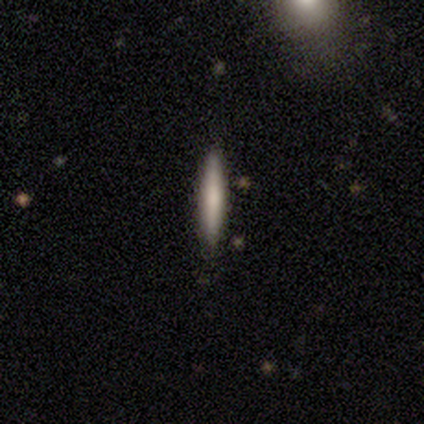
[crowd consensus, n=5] This is likely a smooth galaxy (60%). How rounded: clearly cigar-shaped (100%). Merging: clearly none (100%).